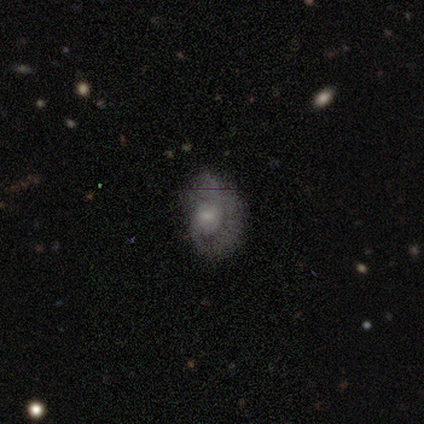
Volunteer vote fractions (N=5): Overall: smooth (40%, tied with featured or disk). How rounded: round (50%, tied with in between). Merging: minor disturbance (50%; none 25%).